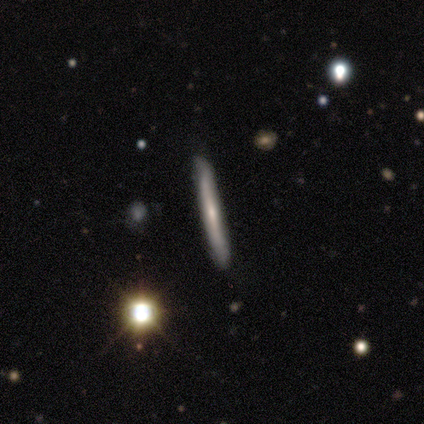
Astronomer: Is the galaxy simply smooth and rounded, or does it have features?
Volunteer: featured or disk — 50%.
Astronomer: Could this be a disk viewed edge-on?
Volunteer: yes — 100%.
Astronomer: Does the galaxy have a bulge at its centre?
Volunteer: none — 100%.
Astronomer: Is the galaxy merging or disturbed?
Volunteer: none — 100%.